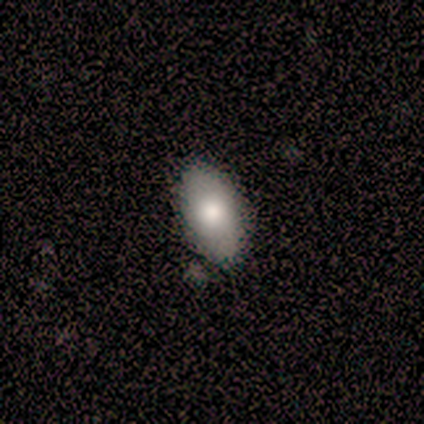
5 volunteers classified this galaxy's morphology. smooth-or-featured: smooth: 80% | star or artifact: 20% | featured or disk: 0%
  how-rounded: in between: 100% | round: 0% | cigar-shaped: 0%
  merging: none: 75% | minor disturbance: 25% | major disturbance: 0% | merger: 0%